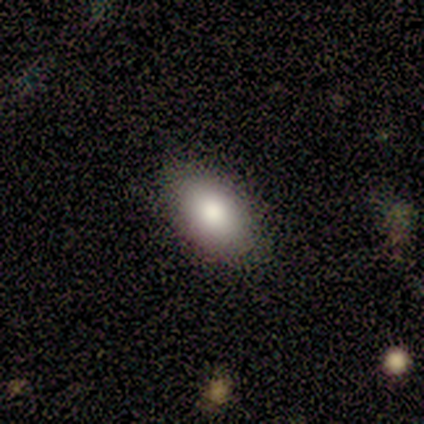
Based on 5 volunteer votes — This is clearly a smooth galaxy (100%). How rounded: clearly in between (100%). Merging: clearly none (80%).